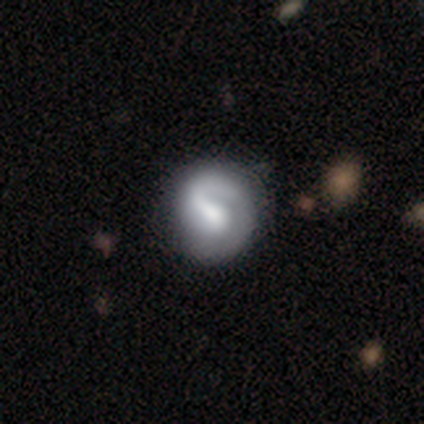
Smooth or featured? 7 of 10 (70%) said featured or disk. Edge-on disk? 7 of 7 (100%) said no. Bar? 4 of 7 (57%) said weak. Spiral arms? 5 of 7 (71%) said yes. Spiral winding? 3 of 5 (60%) said tight. Spiral arm count? 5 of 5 (100%) said 1. Bulge size? 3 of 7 (43%) said moderate. Merging? 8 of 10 (80%) said none.